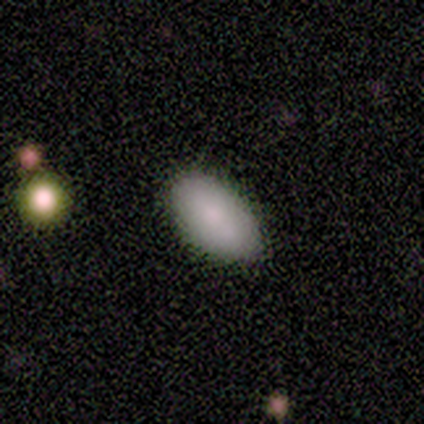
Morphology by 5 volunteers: Q: Smooth or featured?
A: smooth (100%)
Q: How rounded?
A: in between (80%); runner-up: cigar-shaped (20%)
Q: Merging?
A: none (100%)